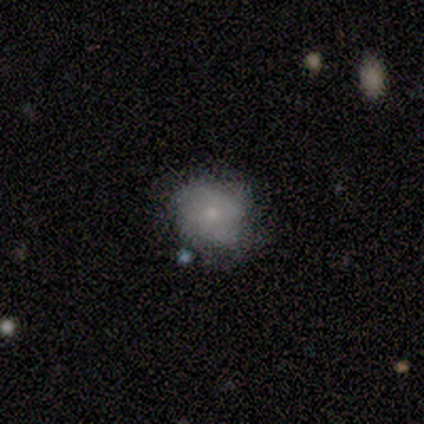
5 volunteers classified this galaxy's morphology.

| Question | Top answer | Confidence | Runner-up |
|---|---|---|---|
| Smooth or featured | smooth | 80% | featured or disk (20%) |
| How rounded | round | 75% | in between (25%) |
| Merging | none | 80% | minor disturbance (20%) |